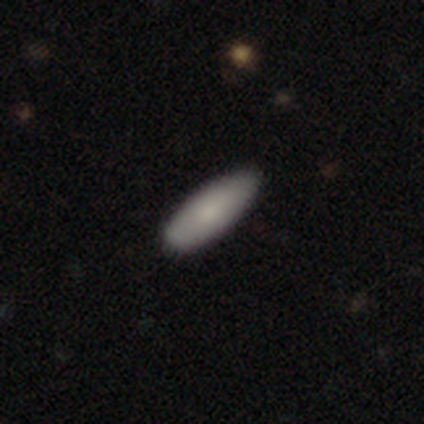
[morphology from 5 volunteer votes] type=smooth (60%); roundness=in between (100%); merging=minor disturbance (67%).